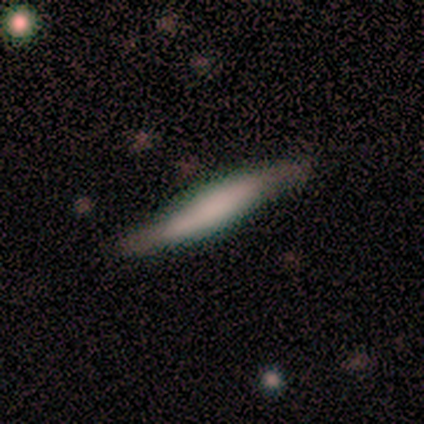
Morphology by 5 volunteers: This is clearly a smooth galaxy (80%). How rounded: clearly cigar-shaped (100%). Merging: marginally none (40%, tied with minor disturbance).